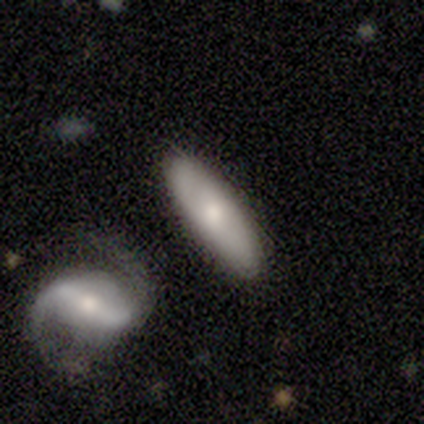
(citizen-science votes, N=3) A featured or disk galaxy (67%) viewed edge-on (50%, tied with no) with a rounded central bulge (100%).

Vote fractions:
- Smooth or featured? featured or disk: 67% / smooth: 33% / star or artifact: 0%
- Edge-on disk? yes: 50% (tied) / no: 50% (tied)
- Edge-on bulge? rounded: 100% / boxy: 0% / none: 0%
- Merging? none: 100% / minor disturbance: 0% / major disturbance: 0% / merger: 0%